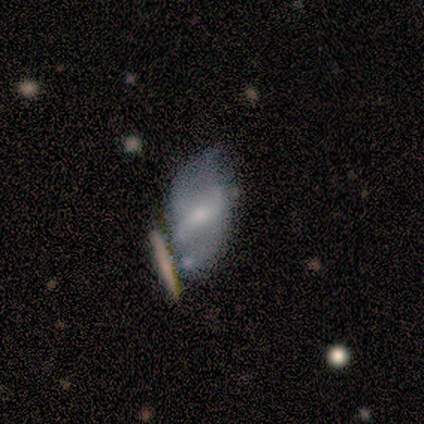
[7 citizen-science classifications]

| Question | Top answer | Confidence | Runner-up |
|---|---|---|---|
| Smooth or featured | smooth | 57% | featured or disk (43%) |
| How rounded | in between | 100% | — |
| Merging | none | 29% | tied: minor disturbance (29%), merger (29%) |